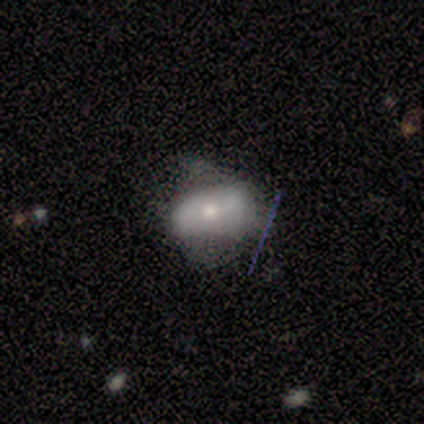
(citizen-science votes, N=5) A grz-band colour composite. It shows a featured or disk galaxy (80%) with no bar (75%), no spiral arms (75%) and a small central bulge (75%). Merging: minor disturbance (60%).